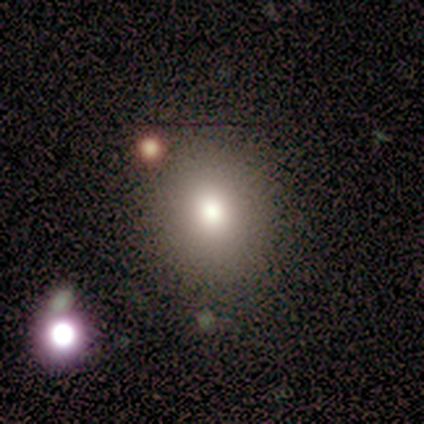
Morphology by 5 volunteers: Volunteers were most divided on "smooth or featured": smooth: 60%, featured or disk: 40%, star or artifact: 0%. More confident: how rounded — round (100%); merging — none (60%).